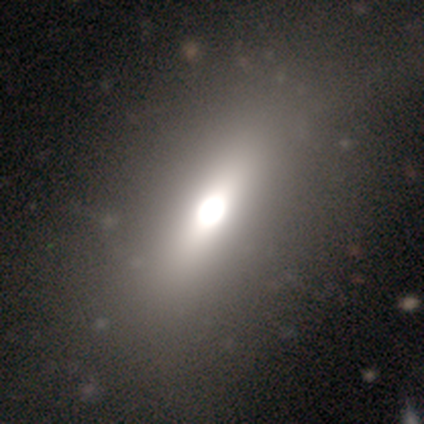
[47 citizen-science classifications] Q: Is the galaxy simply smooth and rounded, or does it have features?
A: smooth — 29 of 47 (62%).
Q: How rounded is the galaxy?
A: in between — 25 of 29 (86%).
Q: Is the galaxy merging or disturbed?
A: none — 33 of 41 (80%).